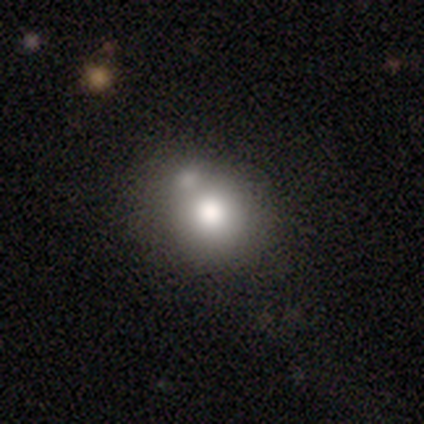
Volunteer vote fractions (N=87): Q: Smooth or featured?
A: smooth (77%); runner-up: featured or disk (13%)
Q: How rounded?
A: round (87%); runner-up: in between (12%)
Q: Merging?
A: none (50%); runner-up: merger (29%)